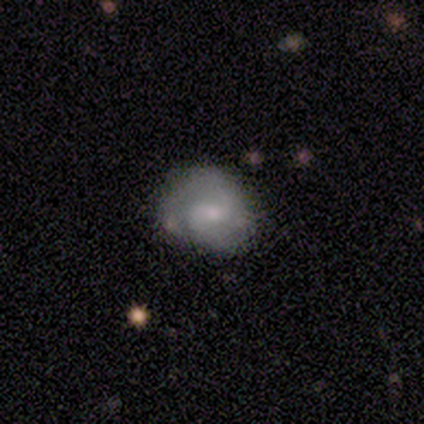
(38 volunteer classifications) Smooth or featured? 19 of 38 (50%) said featured or disk. Edge-on disk? 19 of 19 (100%) said no. Bar? 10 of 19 (53%) said weak. Spiral arms? 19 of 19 (100%) said yes. Spiral winding? 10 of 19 (53%) said tight. Spiral arm count? 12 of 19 (63%) said 2. Bulge size? 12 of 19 (63%) said small. Merging? 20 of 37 (54%) said none.